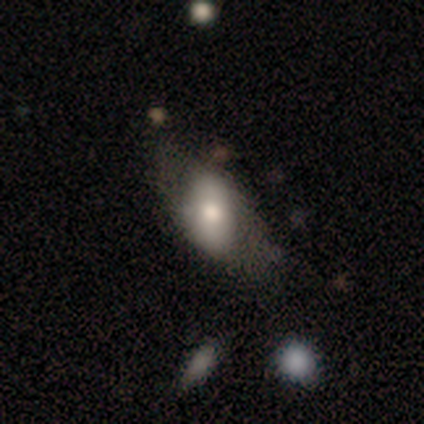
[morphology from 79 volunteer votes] A smooth galaxy with no disk features (67%) that is in between round and cigar-shaped (87%). Merging: none (29%).